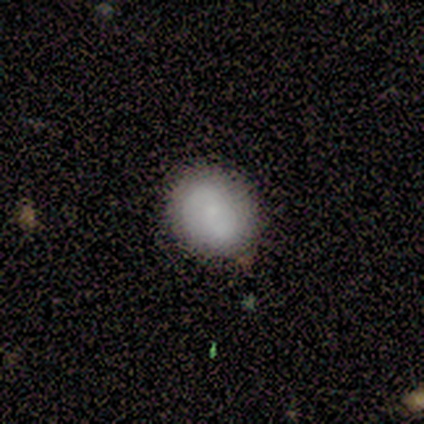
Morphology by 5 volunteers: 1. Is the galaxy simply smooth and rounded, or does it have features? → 60% smooth, 40% featured or disk, 0% star or artifact.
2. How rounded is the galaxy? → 100% round, 0% in between, 0% cigar-shaped.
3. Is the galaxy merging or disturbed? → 100% none, 0% minor disturbance, 0% major disturbance, 0% merger.